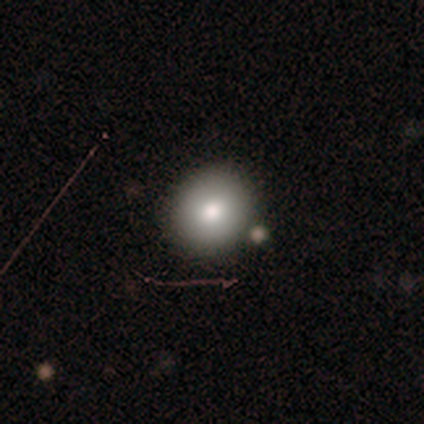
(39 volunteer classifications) Smooth or featured? smooth (82%)
How rounded? round (84%)
Merging? none (79%)